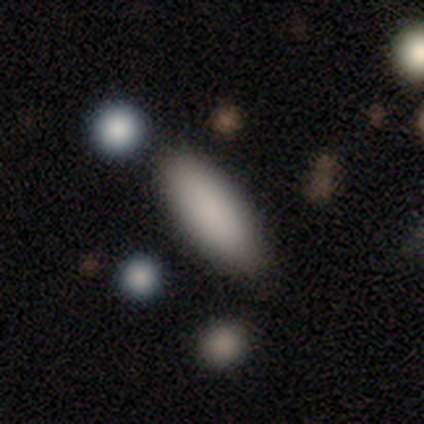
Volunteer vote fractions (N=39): smooth_or_featured: smooth (p=0.85) [alt: star or artifact p=0.10]
how_rounded: in between (p=0.82) [alt: cigar-shaped p=0.15]
merging: none (p=0.80) [alt: minor disturbance p=0.11]